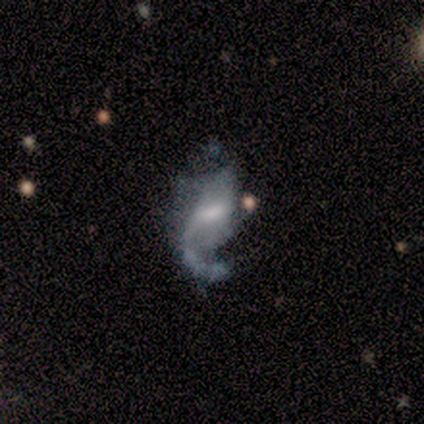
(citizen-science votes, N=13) A featured or disk galaxy (100%) with a weak bar (55%), 1 (73%) loose (64%) spiral arms (100%) and a moderate central bulge (45%, tied with small). Merging: major disturbance (46%).